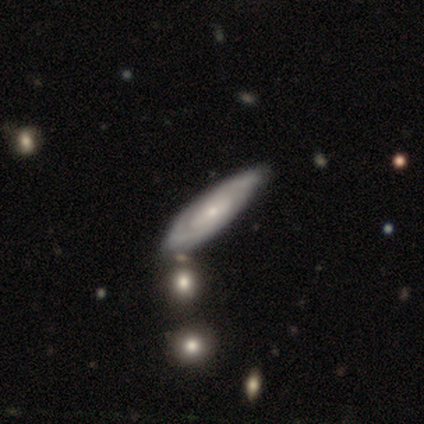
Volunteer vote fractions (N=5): Overall: smooth (40%, tied with featured or disk). How rounded: cigar-shaped (100%). Merging: none (50%; minor disturbance 25%).